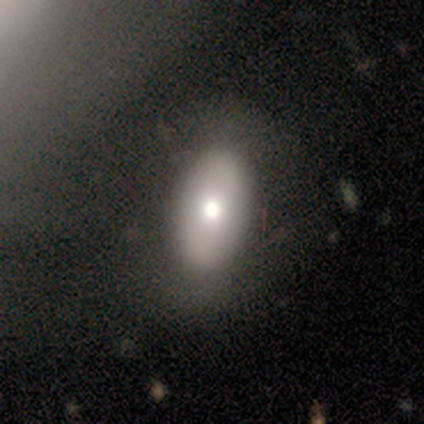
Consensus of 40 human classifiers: Overall: smooth (82%). How rounded: in between (88%). Merging: none (64%).